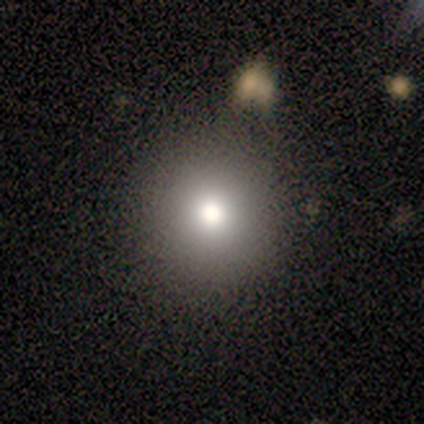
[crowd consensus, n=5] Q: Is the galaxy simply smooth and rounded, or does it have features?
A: star or artifact — 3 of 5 (60%).